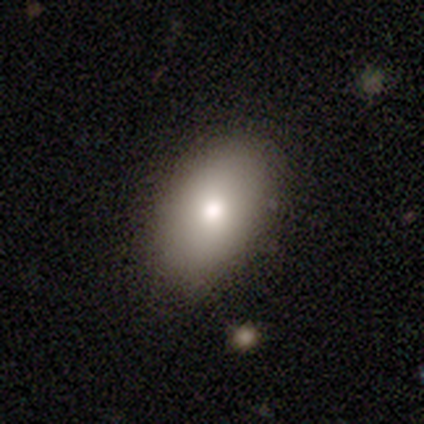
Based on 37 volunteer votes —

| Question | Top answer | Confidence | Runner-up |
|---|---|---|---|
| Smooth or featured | smooth | 78% | featured or disk (14%) |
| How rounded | in between | 83% | round (17%) |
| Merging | none | 85% | minor disturbance (12%) |